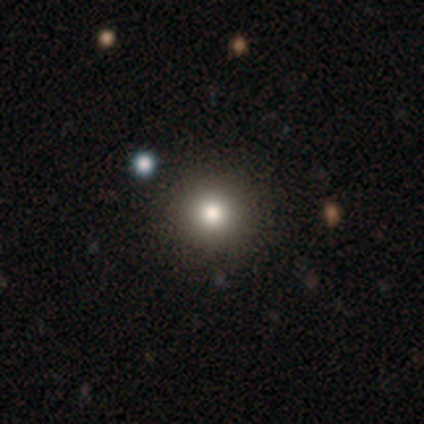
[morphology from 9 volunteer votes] A smooth galaxy with no disk features (78%) that is round (100%).

Vote fractions:
- Smooth or featured? smooth: 78% / featured or disk: 11% / star or artifact: 11%
- How rounded? round: 100% / in between: 0% / cigar-shaped: 0%
- Merging? none: 100% / minor disturbance: 0% / major disturbance: 0% / merger: 0%